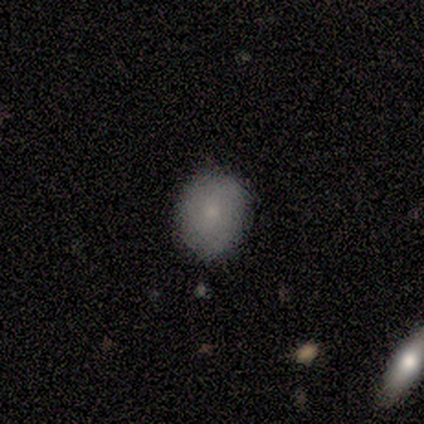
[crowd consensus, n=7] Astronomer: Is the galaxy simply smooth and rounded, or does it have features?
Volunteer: smooth — 100%.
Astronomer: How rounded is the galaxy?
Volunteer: in between — 57% (runner-up: round, 43%).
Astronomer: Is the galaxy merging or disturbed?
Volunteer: none — 86%.